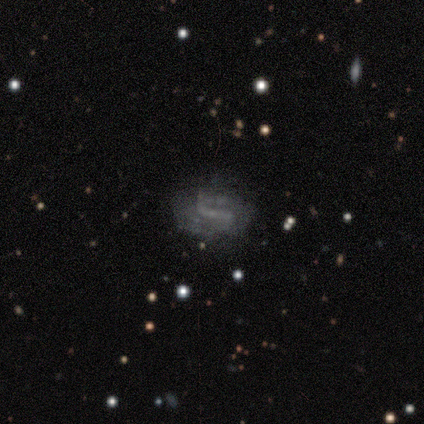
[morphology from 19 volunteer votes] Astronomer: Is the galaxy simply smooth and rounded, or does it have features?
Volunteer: featured or disk — 58%.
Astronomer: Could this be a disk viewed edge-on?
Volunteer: no — 100%.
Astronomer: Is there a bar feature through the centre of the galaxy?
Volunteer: weak — 64%.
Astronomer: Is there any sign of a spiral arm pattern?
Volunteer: yes — 91%.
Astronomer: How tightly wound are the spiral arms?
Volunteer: loose — 50% (runner-up: medium, 30%).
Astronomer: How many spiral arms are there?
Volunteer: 2 — 60%.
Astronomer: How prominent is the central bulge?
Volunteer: small — 45%, tied with none at 45%.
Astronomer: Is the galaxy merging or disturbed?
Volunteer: none — 81%.